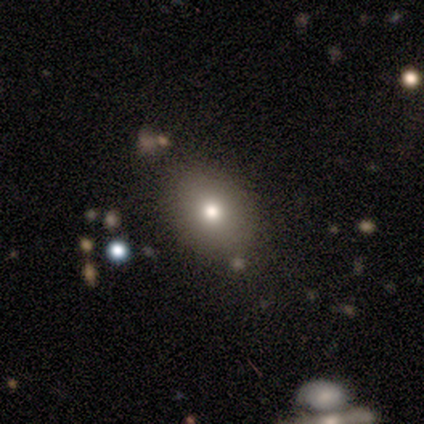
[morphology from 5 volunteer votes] type=smooth (60%); roundness=in between (100%); merging=none (100%).